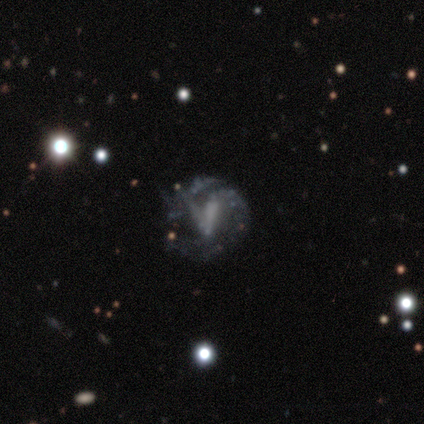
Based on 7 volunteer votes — This appears to be a featured or disk galaxy (86%) with a strong bar (40%, tied with no), no spiral arms (60%) and no central bulge (80%). Merging: none (43%, tied with major disturbance).